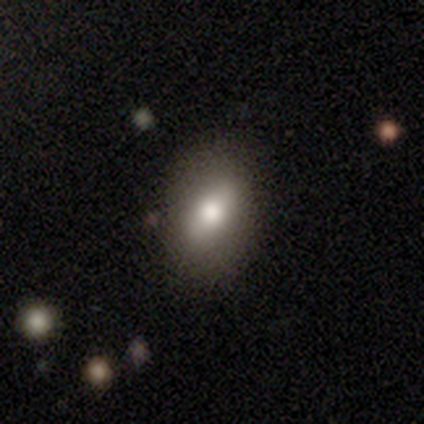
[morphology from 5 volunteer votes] This is clearly a smooth galaxy (80%). How rounded: likely in between (75%). Merging: clearly none (80%).